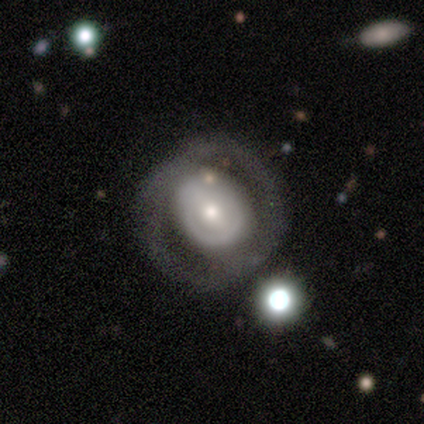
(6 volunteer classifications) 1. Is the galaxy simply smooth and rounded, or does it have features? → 50% smooth (tied), 50% featured or disk (tied), 0% star or artifact.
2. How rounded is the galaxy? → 67% in between, 33% round, 0% cigar-shaped.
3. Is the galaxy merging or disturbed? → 100% none, 0% minor disturbance, 0% major disturbance, 0% merger.